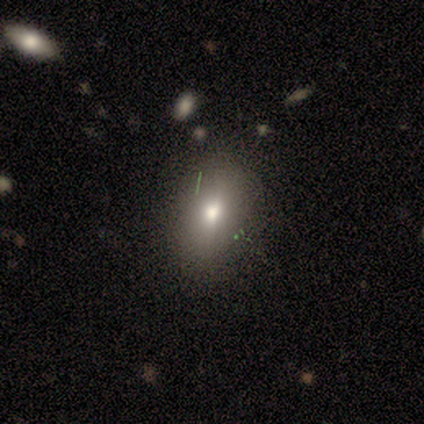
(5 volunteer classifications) Smooth or featured?
  - smooth: 80% *
  - featured or disk: 20%
  - star or artifact: 0%
How rounded?
  - in between: 75% *
  - round: 25%
  - cigar-shaped: 0%
Merging?
  - none: 60% *
  - major disturbance: 40%
  - minor disturbance: 0%
  - merger: 0%